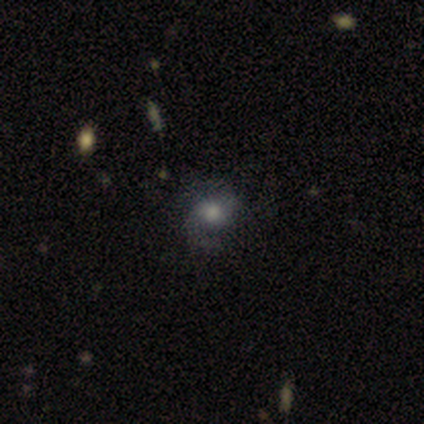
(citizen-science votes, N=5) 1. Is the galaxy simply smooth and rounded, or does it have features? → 60% featured or disk, 40% smooth, 0% star or artifact.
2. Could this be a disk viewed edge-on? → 100% no, 0% yes.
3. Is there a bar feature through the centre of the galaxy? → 100% no, 0% strong, 0% weak.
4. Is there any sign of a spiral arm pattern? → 100% yes, 0% no.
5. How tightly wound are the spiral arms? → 67% medium, 33% loose, 0% tight.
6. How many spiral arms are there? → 100% 2, 0% 1, 0% 3, 0% 4, 0% more than 4, 0% can't tell.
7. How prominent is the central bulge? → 67% small, 33% moderate, 0% dominant, 0% large, 0% none.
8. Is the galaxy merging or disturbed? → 80% none, 20% minor disturbance, 0% major disturbance, 0% merger.